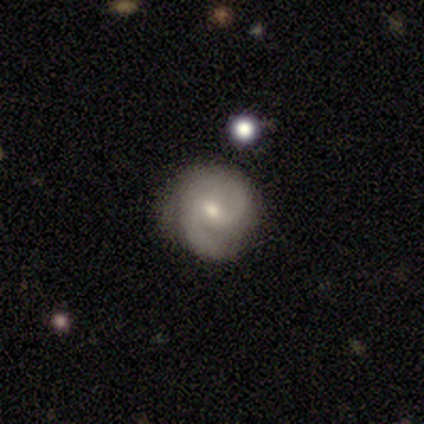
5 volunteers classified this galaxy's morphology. Smooth or featured: featured or disk — 80% (smooth — 20%)
Edge-on disk: no — 100%
Bar: weak — 50% (tied with no — 50%)
Spiral arms: yes — 100%
Spiral winding: loose — 50% (tight — 25%)
Spiral arm count: 2 — 100%
Bulge size: moderate — 50% (tied with small — 50%)
Merging: none — 60% (minor disturbance — 40%)